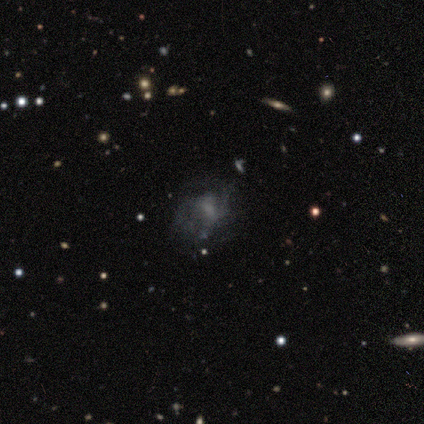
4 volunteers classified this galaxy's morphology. Volunteers were most divided on "spiral arms" (2-way tie): yes: 50%, no: 50%; "spiral winding" (2-way tie): tight: 50%, loose: 50%, medium: 0%. More confident: smooth or featured — featured or disk (100%); edge-on disk — no (100%); bar — no (100%); spiral arm count — can't tell (100%); bulge size — none (75%); merging — none (75%).